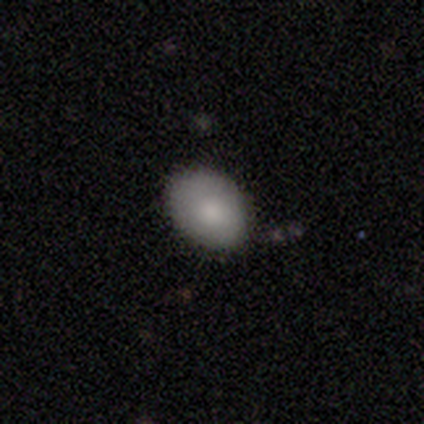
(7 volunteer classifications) A smooth galaxy with no disk features (86%) that is in between round and cigar-shaped (67%).

Vote fractions:
- Smooth or featured? smooth: 86% / star or artifact: 14% / featured or disk: 0%
- How rounded? in between: 67% / round: 33% / cigar-shaped: 0%
- Merging? none: 83% / minor disturbance: 17% / major disturbance: 0% / merger: 0%